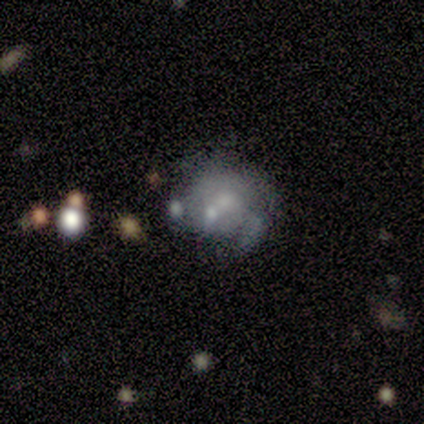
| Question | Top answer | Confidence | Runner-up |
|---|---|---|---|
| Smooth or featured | featured or disk | 80% | smooth (20%) |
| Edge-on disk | no | 100% | — |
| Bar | no | 75% | strong (25%) |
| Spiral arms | yes | 75% | no (25%) |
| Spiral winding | medium | 67% | loose (33%) |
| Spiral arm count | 3 | 33% | tied: more than 4 (33%), can't tell (33%) |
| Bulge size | moderate | 50% | tied: small (50%) |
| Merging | none | 60% | minor disturbance (20%) |